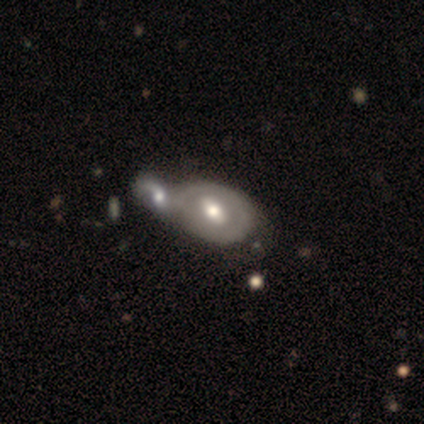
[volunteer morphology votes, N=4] smooth 50% (tied), featured or disk 50% (tied), star or artifact 0%. Down the decision tree: how rounded — in between (100%); merging — merger (75%).